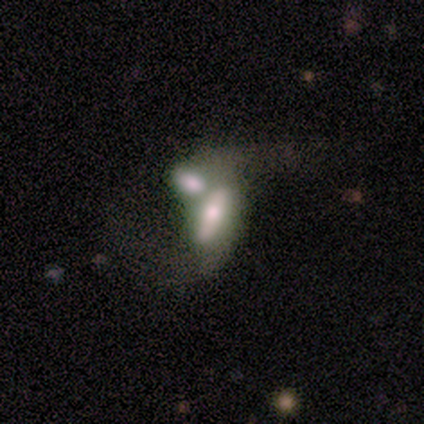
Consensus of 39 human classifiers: smooth-or-featured: featured or disk: 54% | smooth: 41% | star or artifact: 5%
  disk-edge-on: no: 76% | yes: 24%
    bar: no: 50% | strong: 38% | weak: 12%
    has-spiral-arms: yes: 56% | no: 44%
      spiral-winding: loose: 89% | tight: 11% | medium: 0%
      spiral-arm-count: 2: 100% | 1: 0% | 3: 0% | 4: 0% | more than 4: 0% | can't tell: 0%
    bulge-size: small: 31% | moderate: 25% | large: 19% | dominant: 12% | none: 12%
  merging: merger: 84% | minor disturbance: 8% | major disturbance: 5% | none: 3%